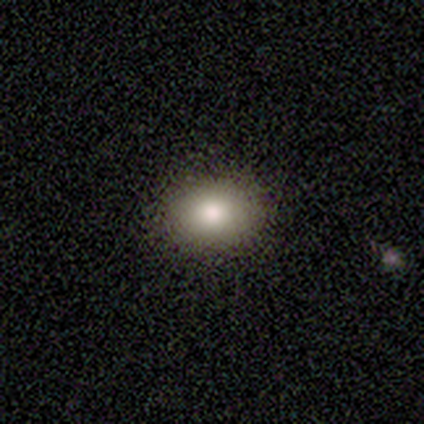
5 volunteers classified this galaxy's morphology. type=smooth (60%); roundness=in between (100%); merging=none (100%).